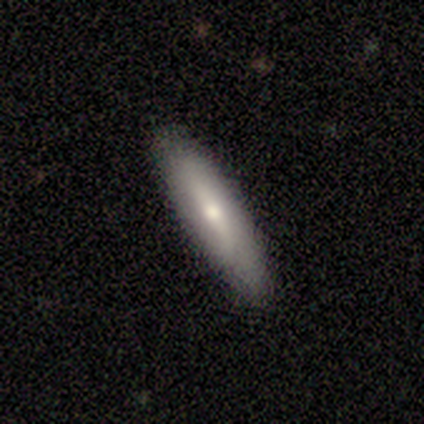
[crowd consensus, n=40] This appears to be a smooth galaxy with no disk features (57%) that is cigar-shaped (78%). Merging: none (77%).